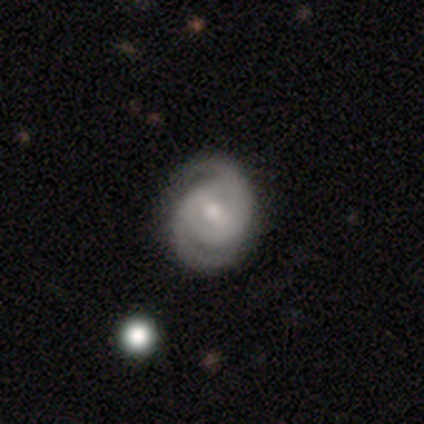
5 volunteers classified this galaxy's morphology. smooth_or_featured: featured or disk (p=0.80) [alt: star or artifact p=0.20]
disk_edge_on: no (p=1.00)
bar: no (p=0.50) [alt: strong p=0.25]
has_spiral_arms: yes (p=1.00)
spiral_winding: tight (p=0.75) [alt: medium p=0.25]
spiral_arm_count: 2 (p=1.00)
bulge_size: moderate (p=0.50) [tied with: small p=0.50]
merging: none (p=1.00)